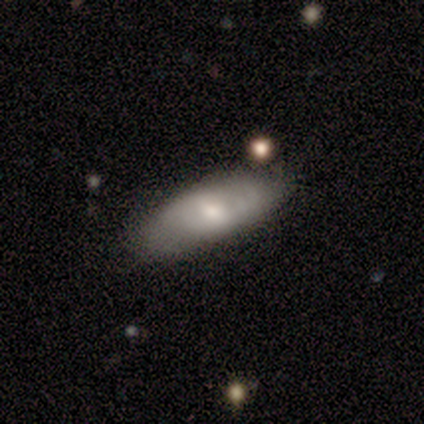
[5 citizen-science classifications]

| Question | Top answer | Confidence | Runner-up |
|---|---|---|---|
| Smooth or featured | featured or disk | 60% | smooth (40%) |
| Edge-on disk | no | 100% | — |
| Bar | weak | 67% | no (33%) |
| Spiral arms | yes | 100% | — |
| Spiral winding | medium | 100% | — |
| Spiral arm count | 2 | 67% | can't tell (33%) |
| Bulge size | moderate | 67% | small (33%) |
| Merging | none | 60% | minor disturbance (40%) |